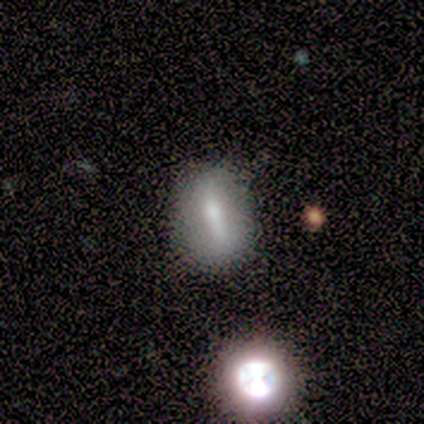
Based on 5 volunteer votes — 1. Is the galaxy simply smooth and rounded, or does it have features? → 40% smooth (tied), 40% featured or disk (tied), 20% star or artifact.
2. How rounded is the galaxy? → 50% in between (tied), 50% cigar-shaped (tied), 0% round.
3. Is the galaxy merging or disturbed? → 75% none, 25% minor disturbance, 0% major disturbance, 0% merger.